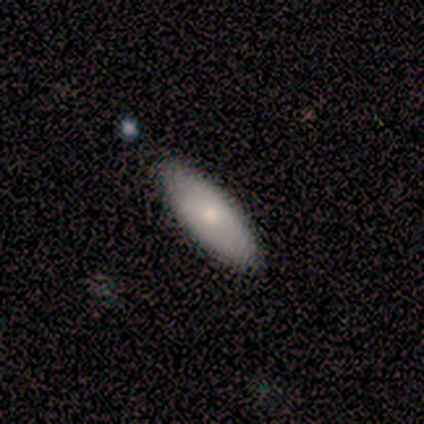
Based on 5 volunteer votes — Smooth or featured? 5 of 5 (100%) said smooth. How rounded? 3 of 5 (60%) said cigar-shaped. Merging? 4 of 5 (80%) said none.